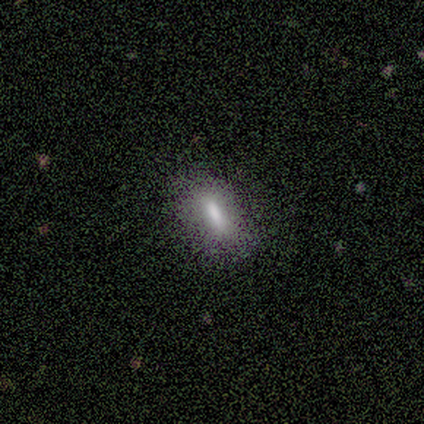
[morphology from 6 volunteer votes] smooth_or_featured: smooth (p=0.83) [alt: star or artifact p=0.17]
how_rounded: cigar-shaped (p=0.80) [alt: in between p=0.20]
merging: none (p=0.60) [alt: major disturbance p=0.20]